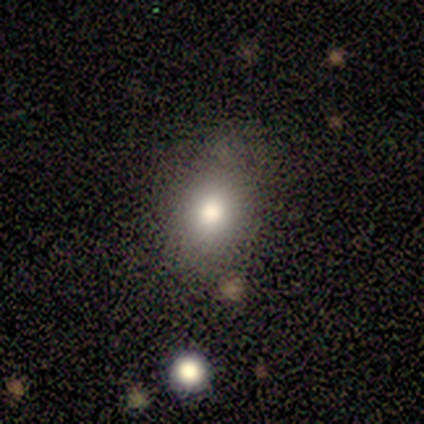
Volunteers were most divided on "how rounded": in between: 57%, round: 43%, cigar-shaped: 0%. More confident: smooth or featured — smooth (80%); merging — none (78%).